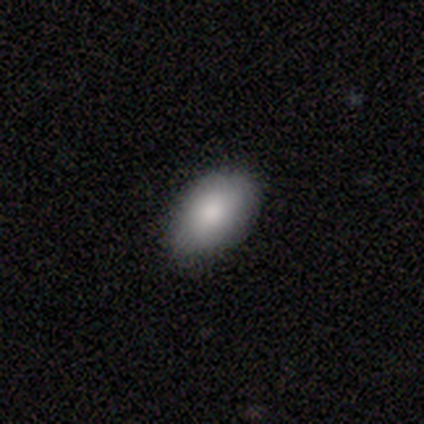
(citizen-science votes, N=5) smooth 60%, featured or disk 40%, star or artifact 0%. Down the decision tree: how rounded — in between (100%); merging — none (100%).